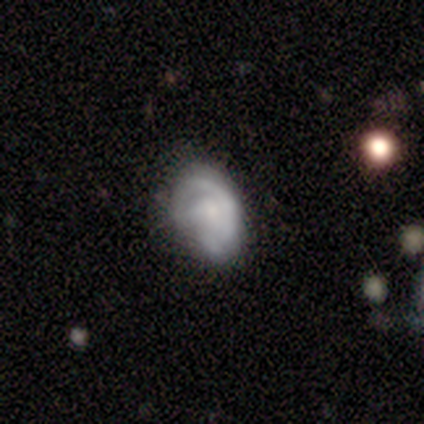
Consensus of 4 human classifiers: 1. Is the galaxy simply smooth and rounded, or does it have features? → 75% featured or disk, 25% smooth, 0% star or artifact.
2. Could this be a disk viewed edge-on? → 100% no, 0% yes.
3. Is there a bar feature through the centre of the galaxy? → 67% no, 33% strong, 0% weak.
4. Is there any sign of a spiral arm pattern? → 100% yes, 0% no.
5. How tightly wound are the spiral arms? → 100% tight, 0% medium, 0% loose.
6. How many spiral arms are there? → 67% 1, 33% can't tell, 0% 2, 0% 3, 0% 4, 0% more than 4.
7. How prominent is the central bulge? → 67% none, 33% large, 0% dominant, 0% moderate, 0% small.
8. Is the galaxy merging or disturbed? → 50% minor disturbance (tied), 50% major disturbance (tied), 0% none, 0% merger.